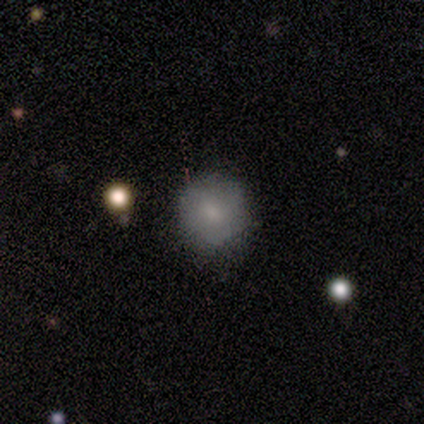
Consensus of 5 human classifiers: This is likely a smooth galaxy (60%). How rounded: clearly round (100%). Merging: clearly none (100%).